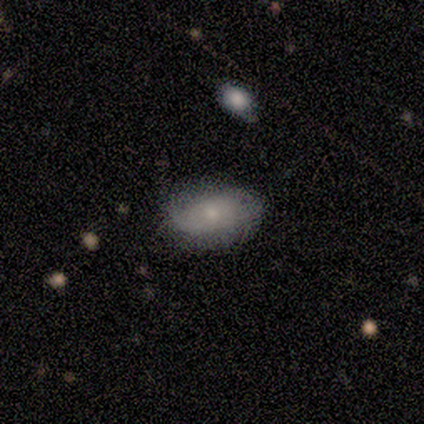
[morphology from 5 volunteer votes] Smooth or featured? smooth (60%)
How rounded? in between (100%)
Merging? none (60%)